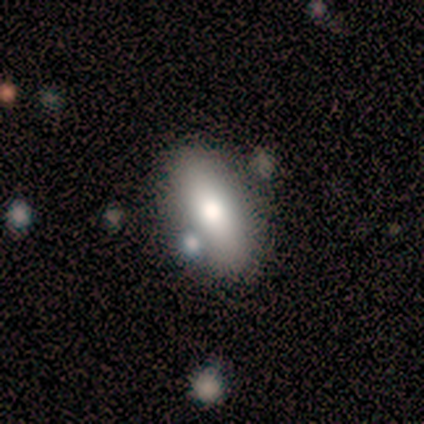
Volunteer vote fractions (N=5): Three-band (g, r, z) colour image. It shows a smooth galaxy with no disk features (60%) that is in between round and cigar-shaped (100%). Merging: none (40%, tied with merger).